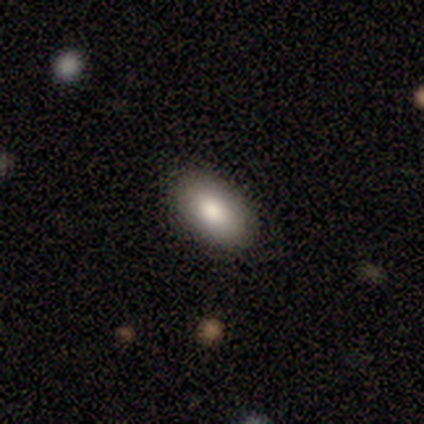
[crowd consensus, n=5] Smooth or featured? 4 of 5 (80%) said smooth. How rounded? 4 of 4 (100%) said in between. Merging? 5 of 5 (100%) said none.